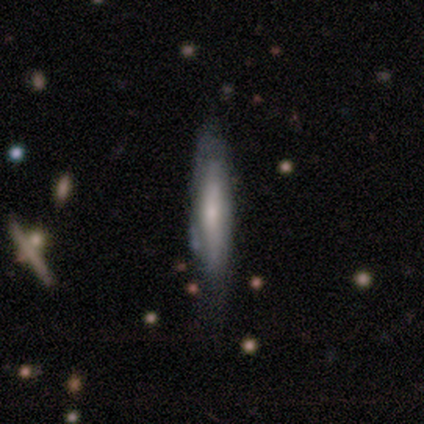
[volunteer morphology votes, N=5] This appears to be a featured or disk galaxy (80%) viewed edge-on (50%, tied with no) with no central bulge (100%). Merging: none (50%).